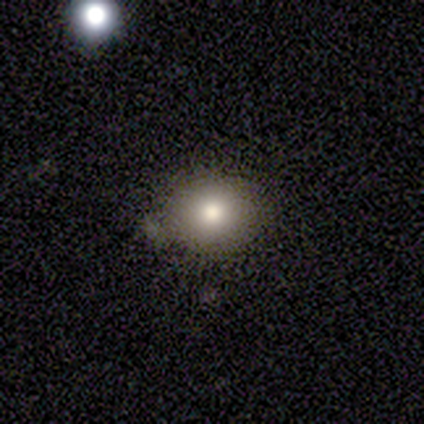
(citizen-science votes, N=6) Smooth or featured? 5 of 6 (83%) said smooth. How rounded? 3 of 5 (60%) said round. Merging? 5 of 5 (100%) said none.